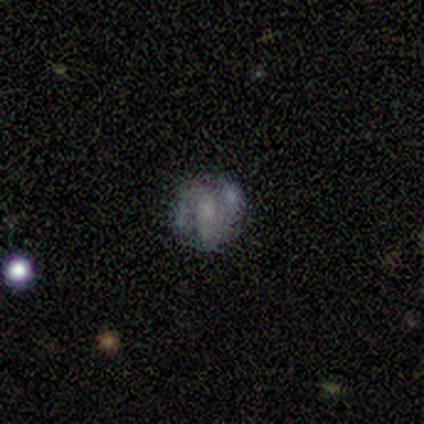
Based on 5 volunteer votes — A featured or disk galaxy (80%) with no bar (100%), 2 (100%) tight (50%, tied with loose) spiral arms (50%, tied with no) and a moderate central bulge (50%).

Vote fractions:
- Smooth or featured? featured or disk: 80% / smooth: 20% / star or artifact: 0%
- Edge-on disk? no: 100% / yes: 0%
- Bar? no: 100% / strong: 0% / weak: 0%
- Spiral arms? yes: 50% (tied) / no: 50% (tied)
- Spiral winding? tight: 50% (tied) / loose: 50% (tied) / medium: 0%
- Spiral arm count? 2: 100% / 1: 0% / 3: 0% / 4: 0% / more than 4: 0% / can't tell: 0%
- Bulge size? moderate: 50% / large: 25% / none: 25% / dominant: 0% / small: 0%
- Merging? none: 60% / major disturbance: 20% / merger: 20% / minor disturbance: 0%